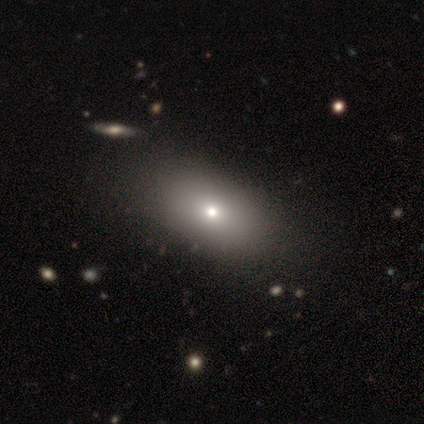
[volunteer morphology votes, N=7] smooth_or_featured: smooth (p=0.86) [alt: star or artifact p=0.14]
how_rounded: in between (p=1.00)
merging: none (p=0.83) [alt: major disturbance p=0.17]